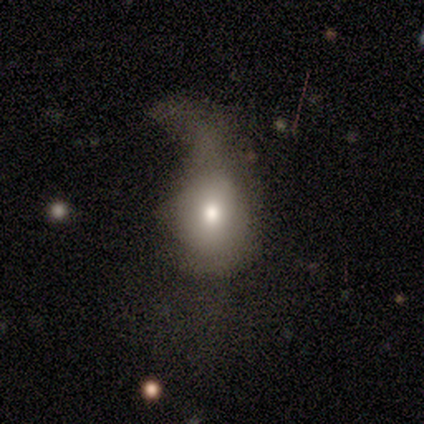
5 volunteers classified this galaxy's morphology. Overall: smooth (80%). How rounded: in between (75%). Merging: major disturbance (100%).